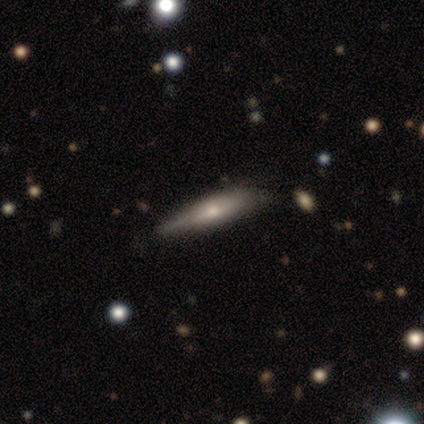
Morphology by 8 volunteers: featured or disk 75%, smooth 25%, star or artifact 0%. Down the decision tree: edge-on disk — yes (67%); edge-on bulge — rounded (75%); merging — none (75%).